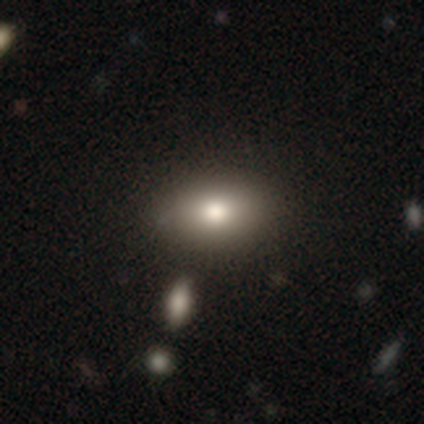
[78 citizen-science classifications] smooth_or_featured: smooth (p=0.82) [alt: featured or disk p=0.13]
how_rounded: in between (p=0.89) [alt: round p=0.09]
merging: none (p=0.47) [alt: merger p=0.11]